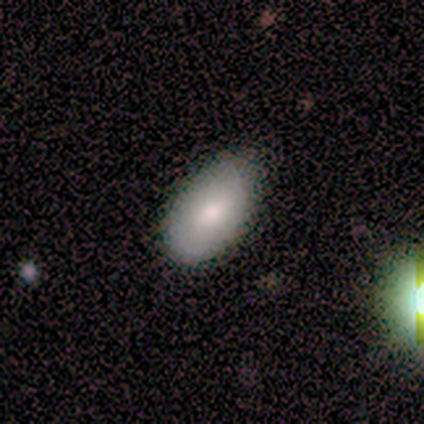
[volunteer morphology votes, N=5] smooth_or_featured: smooth (p=0.80) [alt: featured or disk p=0.20]
how_rounded: in between (p=1.00)
merging: minor disturbance (p=0.80) [alt: none p=0.20]